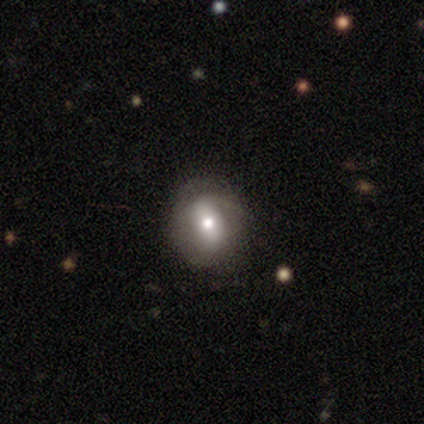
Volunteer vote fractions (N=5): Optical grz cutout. It shows a smooth galaxy with no disk features (100%) that is in between round and cigar-shaped (60%). Merging: none (80%).